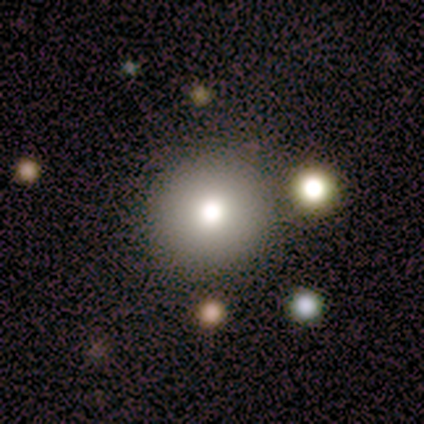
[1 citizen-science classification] smooth-or-featured: smooth: 100% | featured or disk: 0% | star or artifact: 0%
  how-rounded: round: 100% | in between: 0% | cigar-shaped: 0%
  merging: none: 100% | minor disturbance: 0% | major disturbance: 0% | merger: 0%